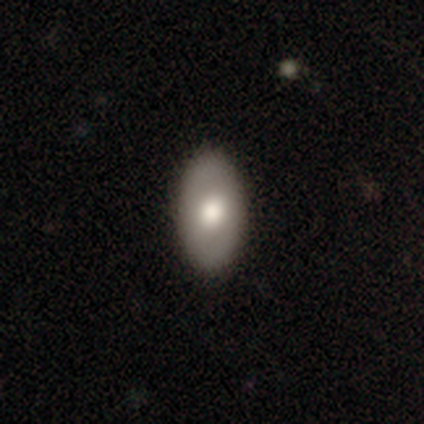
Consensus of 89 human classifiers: Smooth or featured? smooth (69%)
How rounded? in between (93%)
Merging? none (88%)